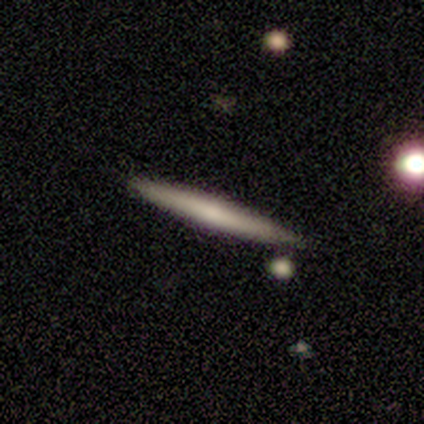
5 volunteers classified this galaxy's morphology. smooth-or-featured: featured or disk: 60% | smooth: 40% | star or artifact: 0%
  disk-edge-on: yes: 100% | no: 0%
    edge-on-bulge: none: 67% | rounded: 33% | boxy: 0%
  merging: none: 100% | minor disturbance: 0% | major disturbance: 0% | merger: 0%